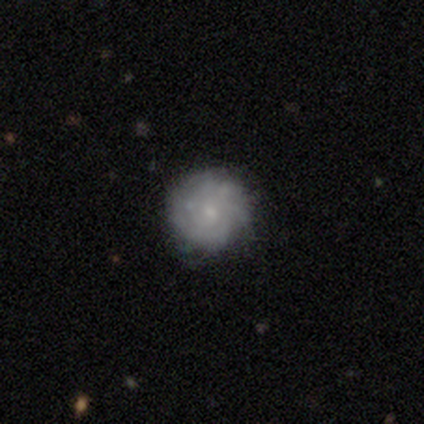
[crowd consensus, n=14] Smooth or featured? 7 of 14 (50%) said smooth. How rounded? 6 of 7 (86%) said round. Merging? 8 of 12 (67%) said none.